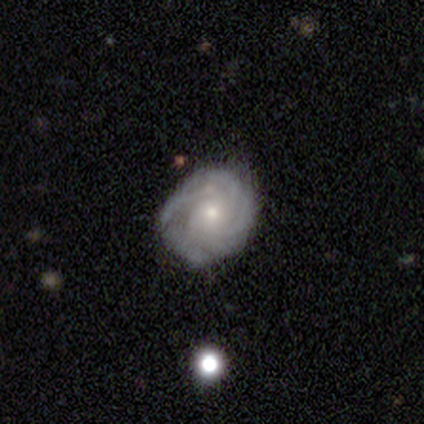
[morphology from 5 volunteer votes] A featured or disk galaxy (100%) with a weak bar (50%, tied with no), tight (75%) spiral arms (100%) and a moderate central bulge (50%, tied with small).

Vote fractions:
- Smooth or featured? featured or disk: 100% / smooth: 0% / star or artifact: 0%
- Edge-on disk? no: 80% / yes: 20%
- Bar? weak: 50% (tied) / no: 50% (tied) / strong: 0%
- Spiral arms? yes: 100% / no: 0%
- Spiral winding? tight: 75% / medium: 25% / loose: 0%
- Spiral arm count? can't tell: 50% / 2: 25% / 4: 25% / 1: 0% / 3: 0% / more than 4: 0%
- Bulge size? moderate: 50% (tied) / small: 50% (tied) / dominant: 0% / large: 0% / none: 0%
- Merging? none: 80% / minor disturbance: 20% / major disturbance: 0% / merger: 0%